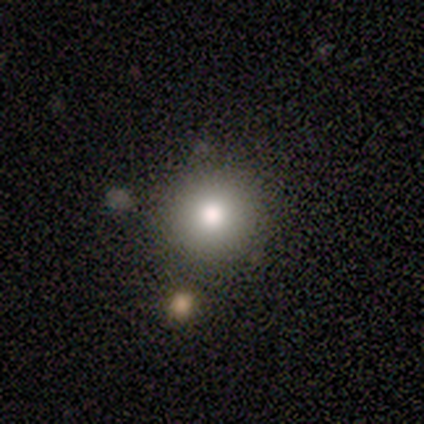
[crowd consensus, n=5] smooth_or_featured: smooth (p=0.60) [alt: star or artifact p=0.40]
how_rounded: round (p=1.00)
merging: none (p=0.67) [alt: minor disturbance p=0.33]